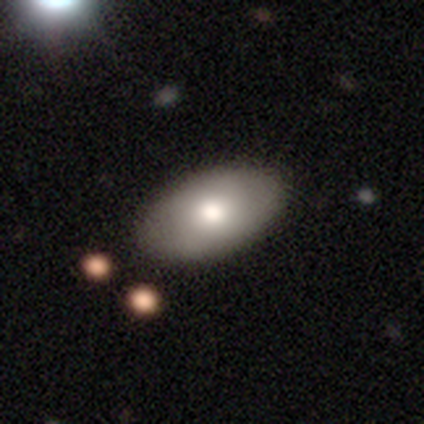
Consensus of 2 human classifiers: Morphology: type=smooth (100%); roundness=in between (100%); merging=none (100%).